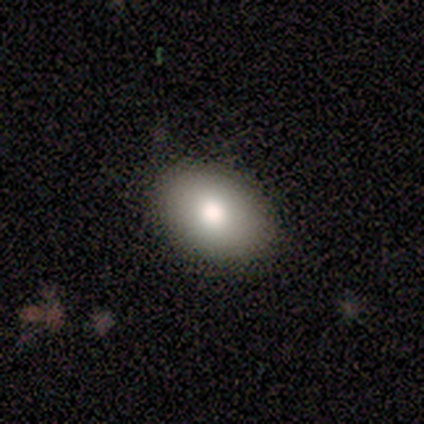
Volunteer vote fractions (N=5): Overall: featured or disk (60%; smooth 40%). Edge-on disk: no (100%). Bar: no (100%). Spiral arms: no (100%). Bulge size: moderate (100%). Merging: none (100%).